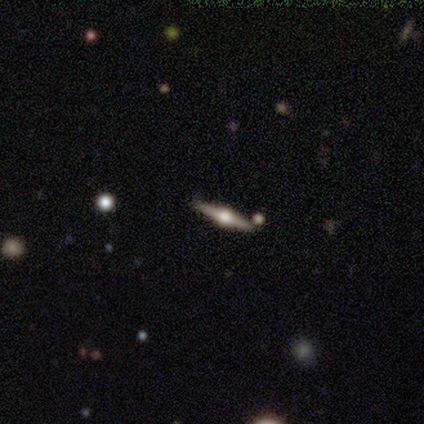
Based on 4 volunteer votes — A featured or disk galaxy (100%) viewed edge-on (100%) with a rounded central bulge (100%). Merging: none (100%).